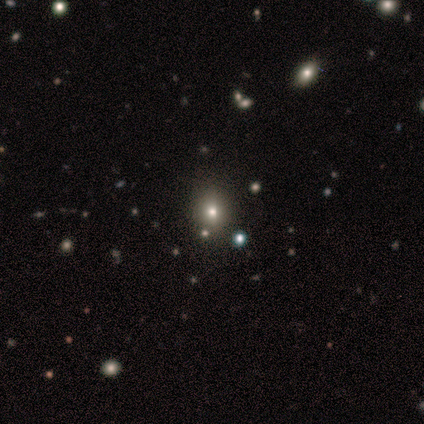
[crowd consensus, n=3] Volunteers were most divided on "bulge size" (2-way tie): dominant: 50%, none: 50%, large: 0%, moderate: 0%, small: 0%. More confident: edge-on disk — no (100%); bar — no (100%); spiral arms — no (100%); merging — none (100%); smooth or featured — featured or disk (67%).